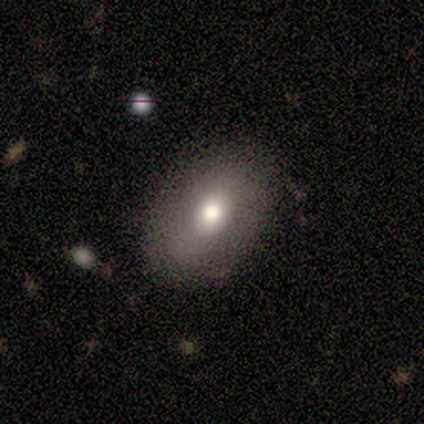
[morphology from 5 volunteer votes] Smooth or featured? smooth (100%)
How rounded? in between (100%)
Merging? none (100%)